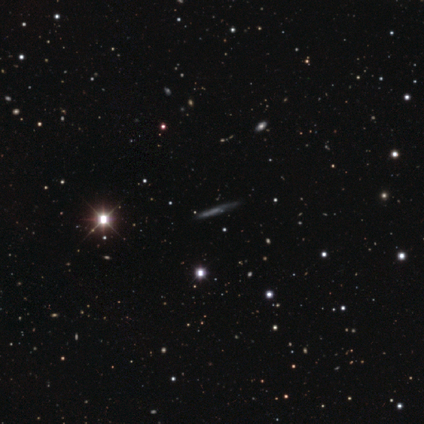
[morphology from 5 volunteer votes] A star or artifact, not a galaxy (60%).

Vote fractions:
- Smooth or featured? star or artifact: 60% / smooth: 20% / featured or disk: 20%